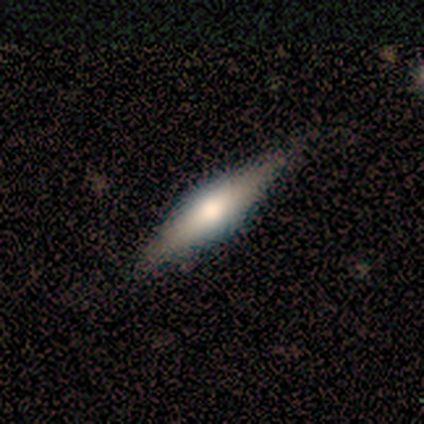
Smooth or featured: smooth — 40% (tied with featured or disk — 40%)
How rounded: in between — 100%
Merging: none — 100%